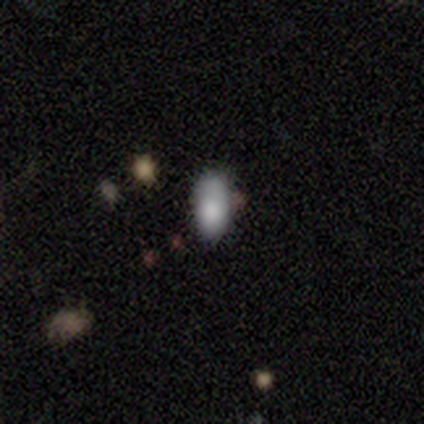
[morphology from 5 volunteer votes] type=smooth (80%); roundness=in between (100%); merging=none (40%, tied with minor disturbance).